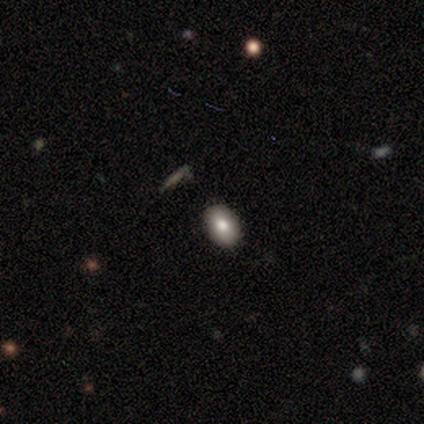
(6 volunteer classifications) This appears to be a smooth galaxy with no disk features (67%) that is in between round and cigar-shaped (100%). Merging: none (100%).